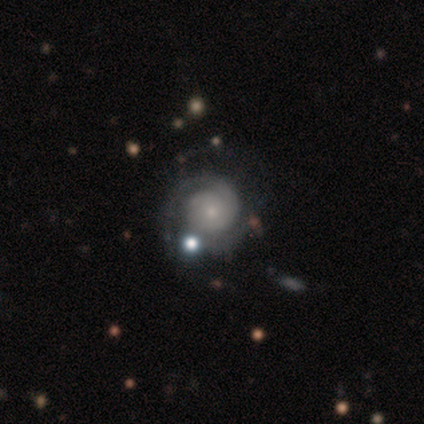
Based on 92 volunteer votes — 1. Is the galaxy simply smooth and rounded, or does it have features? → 83% featured or disk, 11% smooth, 7% star or artifact.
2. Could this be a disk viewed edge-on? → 97% no, 3% yes.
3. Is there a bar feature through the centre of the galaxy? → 85% no, 11% weak, 4% strong.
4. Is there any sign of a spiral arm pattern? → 93% yes, 7% no.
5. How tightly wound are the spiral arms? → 78% tight, 14% medium, 7% loose.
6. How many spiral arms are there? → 71% 2, 17% can't tell, 6% 1, 6% 3, 0% 4, 0% more than 4.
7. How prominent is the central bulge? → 70% small, 20% moderate, 4% large, 4% none, 1% dominant.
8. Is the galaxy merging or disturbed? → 57% none, 21% minor disturbance, 14% major disturbance, 8% merger.